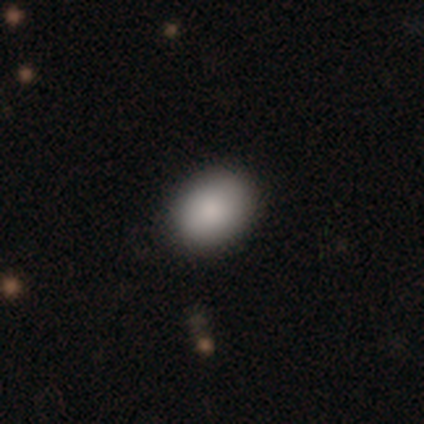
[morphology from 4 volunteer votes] Smooth or featured? 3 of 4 (75%) said smooth. How rounded? 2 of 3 (67%) said round. Merging? 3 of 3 (100%) said none.